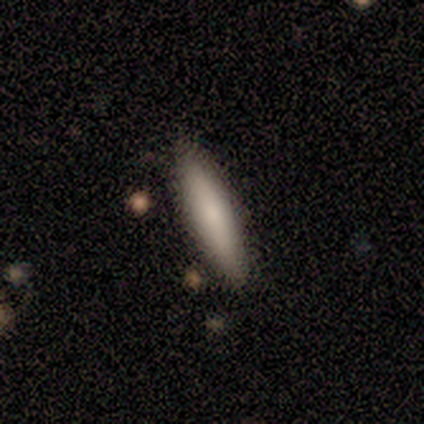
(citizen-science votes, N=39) Morphology: type=smooth (74%); roundness=cigar-shaped (79%); merging=none (63%).